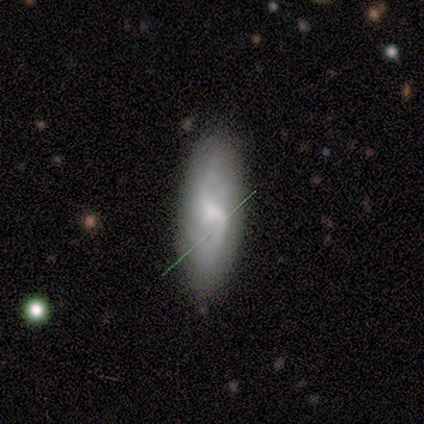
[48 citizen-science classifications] smooth-or-featured: featured or disk: 60% | smooth: 35% | star or artifact: 4%
  disk-edge-on: no: 93% | yes: 7%
    bar: weak: 74% | no: 15% | strong: 11%
    has-spiral-arms: yes: 93% | no: 7%
      spiral-winding: medium: 44% | loose: 36% | tight: 20%
      spiral-arm-count: 2: 80% | can't tell: 16% | 1: 4% | 3: 0% | 4: 0% | more than 4: 0%
    bulge-size: small: 56% | moderate: 26% | none: 11% | large: 7% | dominant: 0%
  merging: none: 76% | minor disturbance: 20% | major disturbance: 4% | merger: 0%